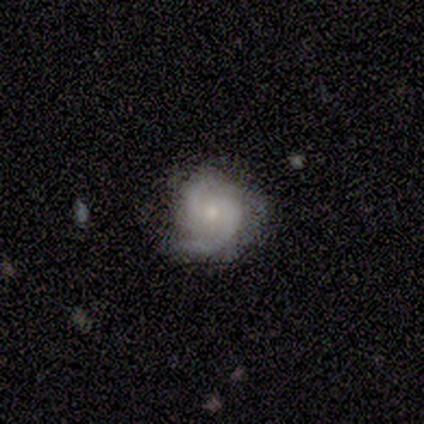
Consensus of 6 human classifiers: smooth_or_featured: featured or disk (p=1.00)
disk_edge_on: no (p=1.00)
bar: no (p=1.00)
has_spiral_arms: yes (p=1.00)
spiral_winding: medium (p=0.50) [alt: tight p=0.33]
spiral_arm_count: 2 (p=0.83) [alt: 3 p=0.17]
bulge_size: small (p=0.67) [alt: moderate p=0.33]
merging: none (p=0.67) [alt: minor disturbance p=0.33]